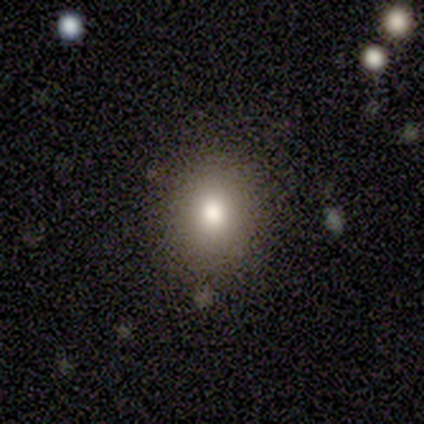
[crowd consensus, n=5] Smooth or featured: smooth — 100%
How rounded: round — 100%
Merging: none — 80% (merger — 20%)